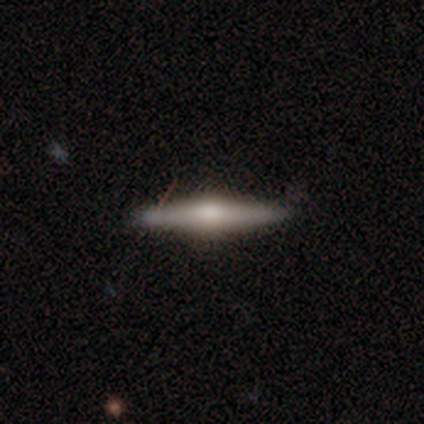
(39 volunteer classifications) smooth_or_featured: featured or disk (p=0.69) [alt: smooth p=0.26]
disk_edge_on: yes (p=0.93) [alt: no p=0.07]
edge_on_bulge: rounded (p=0.96) [alt: none p=0.04]
merging: none (p=0.81) [alt: minor disturbance p=0.14]